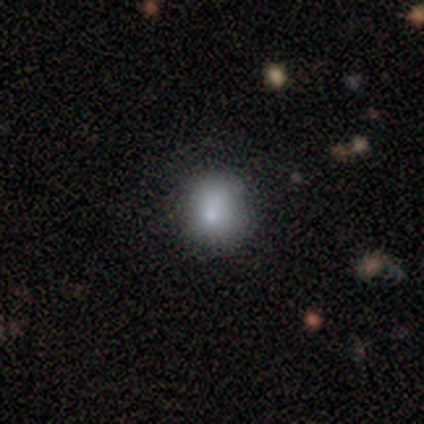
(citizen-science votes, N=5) smooth_or_featured: smooth (p=1.00)
how_rounded: round (p=0.80) [alt: in between p=0.20]
merging: none (p=0.60) [alt: minor disturbance p=0.20]